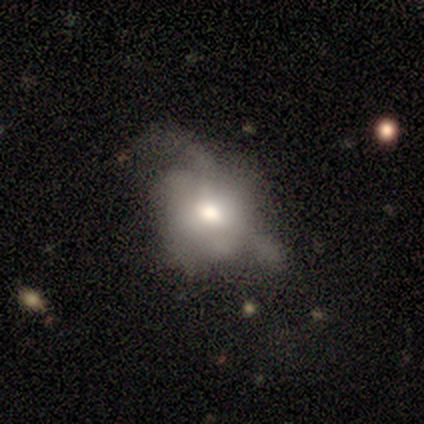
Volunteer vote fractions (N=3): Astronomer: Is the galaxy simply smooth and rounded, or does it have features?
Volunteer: featured or disk — 67%.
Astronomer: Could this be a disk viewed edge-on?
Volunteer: no — 100%.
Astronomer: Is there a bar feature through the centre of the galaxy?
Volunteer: weak — 50%, tied with no at 50%.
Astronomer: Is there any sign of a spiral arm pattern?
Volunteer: yes — 50%, tied with no at 50%.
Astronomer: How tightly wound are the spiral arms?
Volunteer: medium — 100%.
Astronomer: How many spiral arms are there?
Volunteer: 1 — 100%.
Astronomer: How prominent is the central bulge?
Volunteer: large — 50%, tied with moderate at 50%.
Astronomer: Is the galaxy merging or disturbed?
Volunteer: none — 50%, tied with major disturbance at 50%.